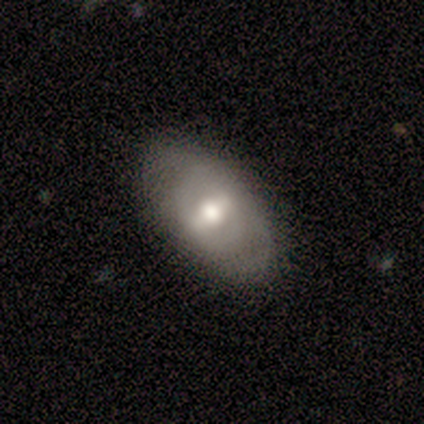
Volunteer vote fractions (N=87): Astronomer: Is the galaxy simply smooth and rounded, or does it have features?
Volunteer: smooth — 47% (runner-up: featured or disk, 44%).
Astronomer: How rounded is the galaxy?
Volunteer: in between — 88%.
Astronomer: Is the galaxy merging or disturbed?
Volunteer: none — 82%.